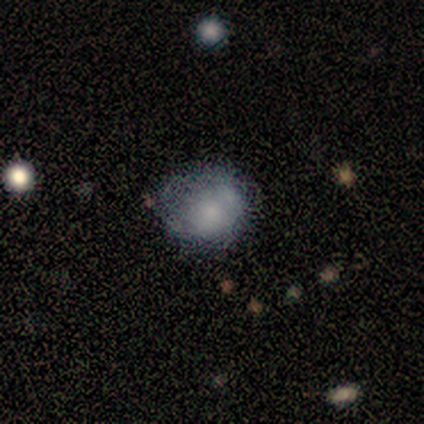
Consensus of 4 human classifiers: smooth_or_featured: smooth (p=1.00)
how_rounded: round (p=0.50) [tied with: in between p=0.50]
merging: none (p=0.50) [tied with: major disturbance p=0.50]